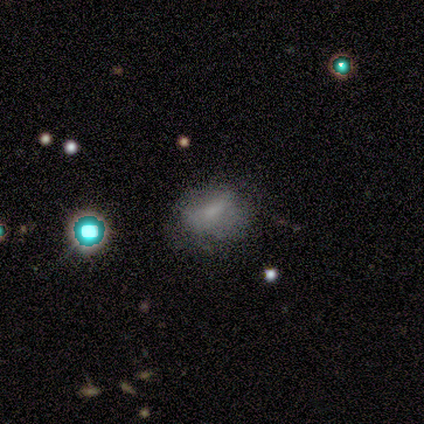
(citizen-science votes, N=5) Smooth or featured? featured or disk (40%, tied with star or artifact)
Edge-on disk? no (100%)
Bar? weak (100%)
Spiral arms? yes (50%, tied with no)
Spiral winding? tight (100%)
Spiral arm count? can't tell (100%)
Bulge size? small (50%, tied with none)
Merging? minor disturbance (67%)